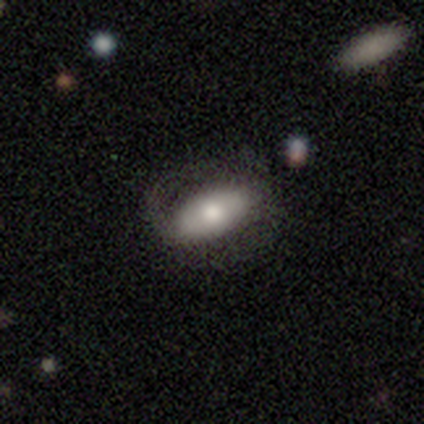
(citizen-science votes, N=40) Volunteers were most divided on "smooth or featured": smooth: 55%, featured or disk: 45%, star or artifact: 0%. More confident: how rounded — in between (77%); merging — none (65%).